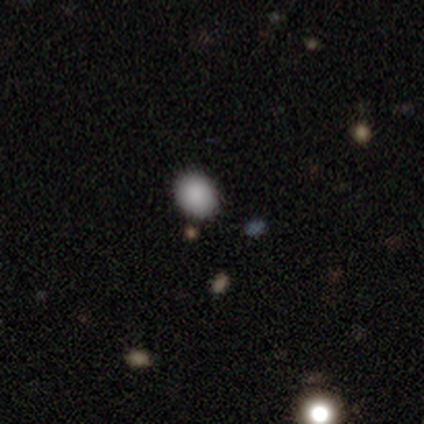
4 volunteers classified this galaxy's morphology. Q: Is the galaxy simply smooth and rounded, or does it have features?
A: smooth — 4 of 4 (100%).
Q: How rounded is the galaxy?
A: in between — 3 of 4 (75%).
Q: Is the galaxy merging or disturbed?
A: none — 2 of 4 (50%).